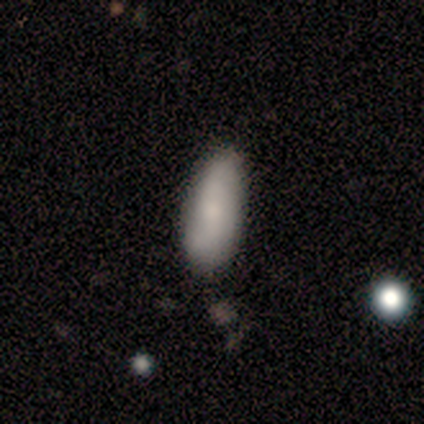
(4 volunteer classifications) Overall: smooth (75%). How rounded: in between (67%; cigar-shaped 33%). Merging: none (100%).